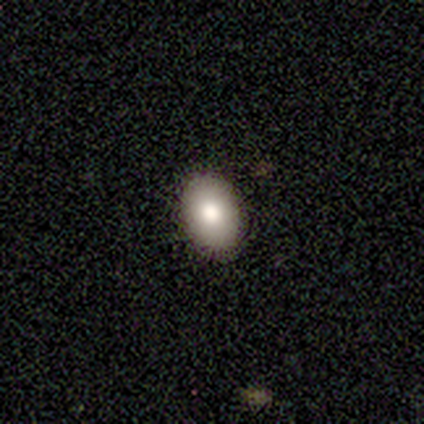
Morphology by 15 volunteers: smooth 80%, star or artifact 20%, featured or disk 0%. Down the decision tree: how rounded — in between (83%); merging — none (100%).